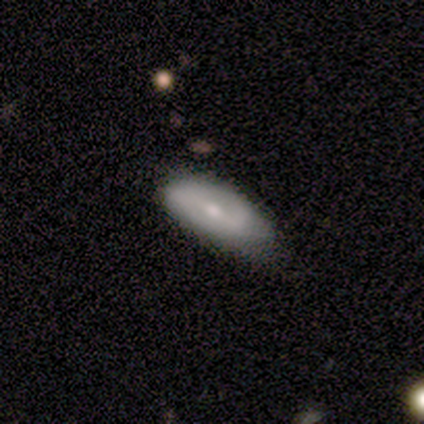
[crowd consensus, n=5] Morphology: type=smooth (60%); roundness=in between (67%); merging=none (80%).